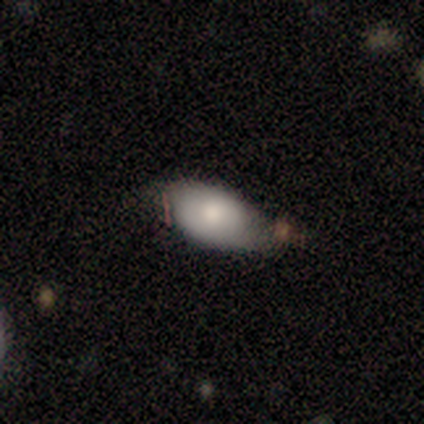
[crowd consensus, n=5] smooth 80%, featured or disk 20%, star or artifact 0%. Down the decision tree: how rounded — in between (100%); merging — none (40%, tied with minor disturbance).